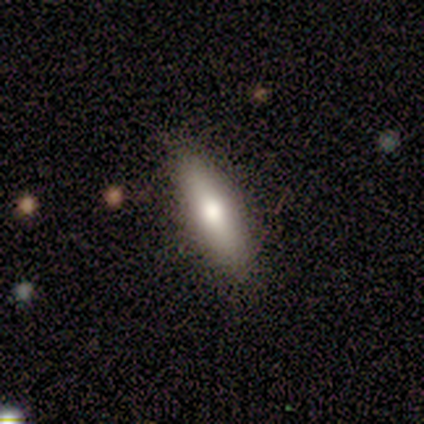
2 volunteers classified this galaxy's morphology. smooth_or_featured: smooth (p=1.00)
how_rounded: in between (p=0.50) [tied with: cigar-shaped p=0.50]
merging: none (p=1.00)